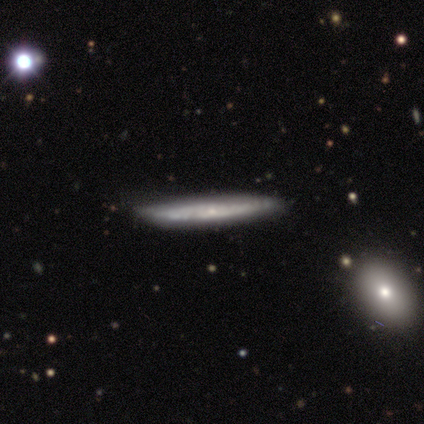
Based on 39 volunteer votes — Morphology: type=featured or disk (64%); edge-on=yes (84%); edge-on bulge=none (57%); merging=none (74%).